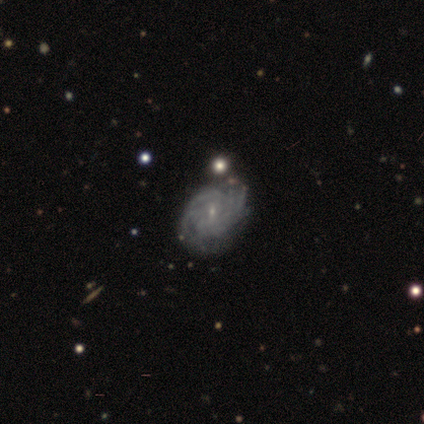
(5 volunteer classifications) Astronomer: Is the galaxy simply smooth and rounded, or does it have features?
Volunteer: featured or disk — 100%.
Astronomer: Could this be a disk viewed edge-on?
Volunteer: no — 100%.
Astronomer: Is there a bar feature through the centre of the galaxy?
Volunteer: no — 60%.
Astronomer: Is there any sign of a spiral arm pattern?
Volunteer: yes — 100%.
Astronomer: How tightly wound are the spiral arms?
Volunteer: tight — 80%.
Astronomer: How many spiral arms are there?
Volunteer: more than 4 — 80%.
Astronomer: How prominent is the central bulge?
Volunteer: small — 80%.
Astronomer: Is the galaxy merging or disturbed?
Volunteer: none — 100%.